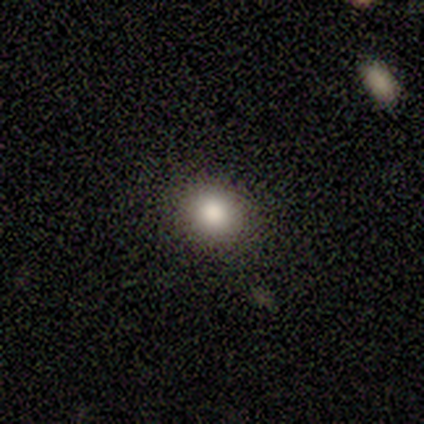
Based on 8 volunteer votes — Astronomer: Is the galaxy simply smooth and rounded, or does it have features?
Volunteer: smooth — 88%.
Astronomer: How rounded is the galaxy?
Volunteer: in between — 57% (runner-up: round, 43%).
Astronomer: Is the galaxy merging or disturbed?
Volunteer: none — 88%.